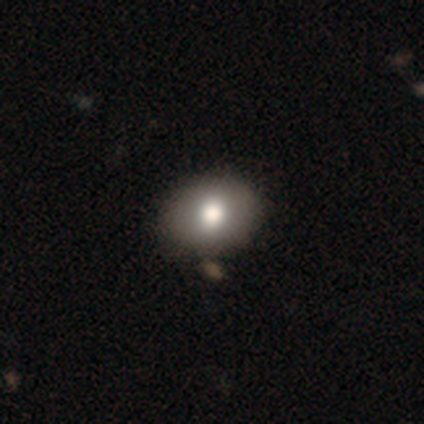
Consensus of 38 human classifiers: Q: Smooth or featured?
A: smooth (84%); runner-up: featured or disk (13%)
Q: How rounded?
A: in between (62%); runner-up: round (38%)
Q: Merging?
A: none (59%); runner-up: minor disturbance (5%)